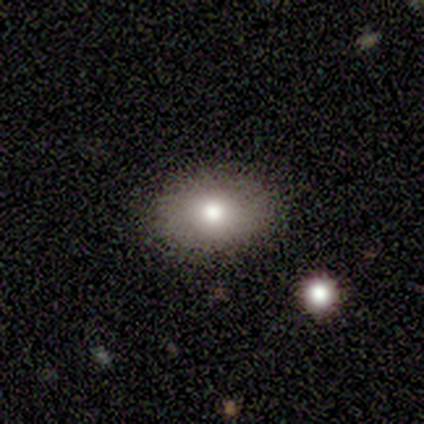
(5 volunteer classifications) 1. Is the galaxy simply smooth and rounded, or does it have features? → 100% smooth, 0% featured or disk, 0% star or artifact.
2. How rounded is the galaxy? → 100% in between, 0% round, 0% cigar-shaped.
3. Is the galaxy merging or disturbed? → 80% none, 20% merger, 0% minor disturbance, 0% major disturbance.